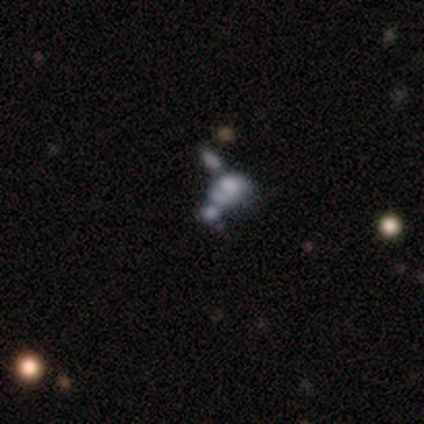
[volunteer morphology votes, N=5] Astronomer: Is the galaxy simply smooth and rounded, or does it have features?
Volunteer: smooth — 40%, tied with star or artifact at 40%.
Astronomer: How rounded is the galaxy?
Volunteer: in between — 100%.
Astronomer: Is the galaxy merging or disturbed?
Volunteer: merger — 100%.